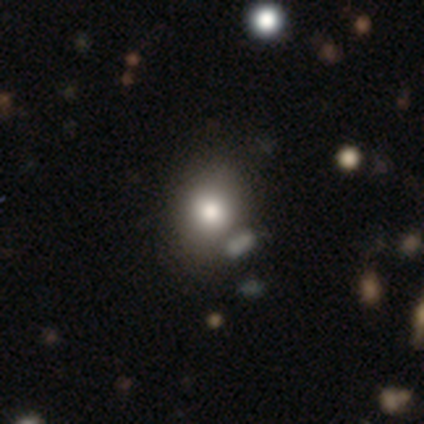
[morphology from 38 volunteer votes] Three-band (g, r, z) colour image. It shows a smooth galaxy with no disk features (82%) that is in between round and cigar-shaped (55%). Merging: none (61%).